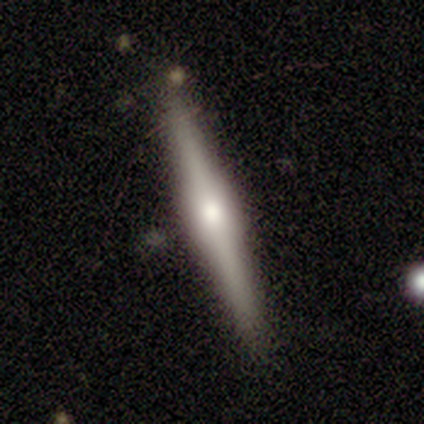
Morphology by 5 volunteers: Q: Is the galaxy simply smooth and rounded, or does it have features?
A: featured or disk — 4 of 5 (80%).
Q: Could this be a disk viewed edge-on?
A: yes — 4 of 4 (100%).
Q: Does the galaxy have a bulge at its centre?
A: rounded — 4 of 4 (100%).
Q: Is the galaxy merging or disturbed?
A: none — 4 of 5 (80%).